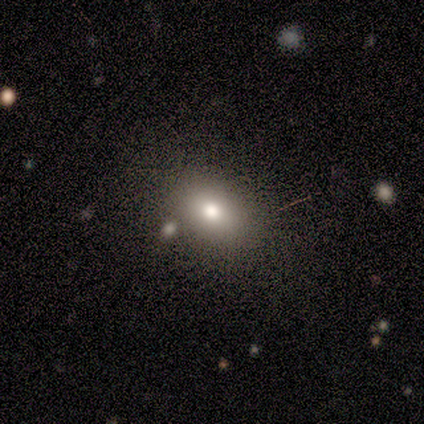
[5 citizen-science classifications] Q: Smooth or featured?
A: smooth (60%); runner-up: featured or disk (20%)
Q: How rounded?
A: in between (67%); runner-up: round (33%)
Q: Merging?
A: none (75%); runner-up: minor disturbance (25%)